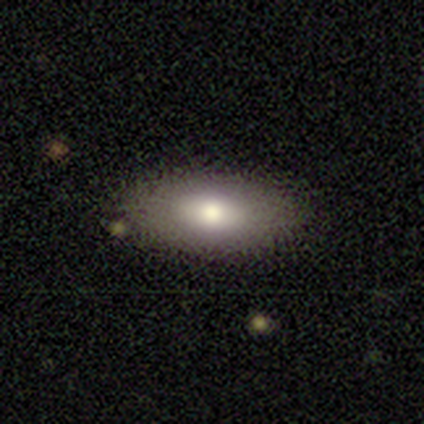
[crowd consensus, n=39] smooth 77%, featured or disk 21%, star or artifact 3%. Down the decision tree: how rounded — in between (93%); merging — none (84%).